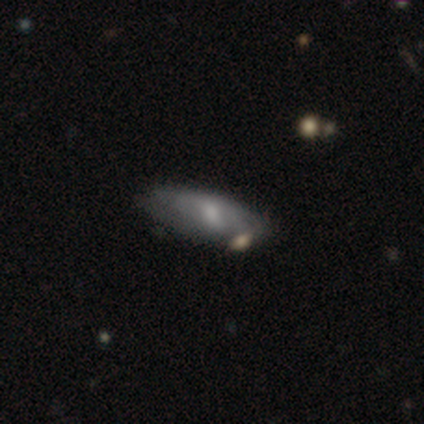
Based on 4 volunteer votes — smooth-or-featured: smooth: 50% (tied) | featured or disk: 50% (tied) | star or artifact: 0%
  how-rounded: in between: 100% | round: 0% | cigar-shaped: 0%
  merging: none: 50% | minor disturbance: 25% | merger: 25% | major disturbance: 0%